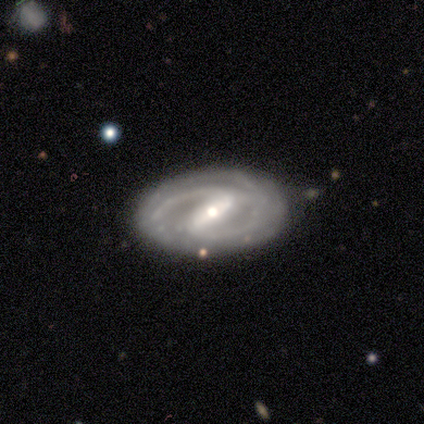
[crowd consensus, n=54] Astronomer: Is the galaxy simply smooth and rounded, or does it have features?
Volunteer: featured or disk — 87%.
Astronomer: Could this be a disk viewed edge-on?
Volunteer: no — 96%.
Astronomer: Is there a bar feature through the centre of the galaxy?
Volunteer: strong — 73%.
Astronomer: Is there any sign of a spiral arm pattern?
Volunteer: yes — 96%.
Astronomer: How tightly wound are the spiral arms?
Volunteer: medium — 53% (runner-up: tight, 44%).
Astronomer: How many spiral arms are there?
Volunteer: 2 — 79%.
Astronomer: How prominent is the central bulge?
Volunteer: moderate — 58% (runner-up: small, 42%).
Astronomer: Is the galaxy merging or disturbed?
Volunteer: none — 82%.